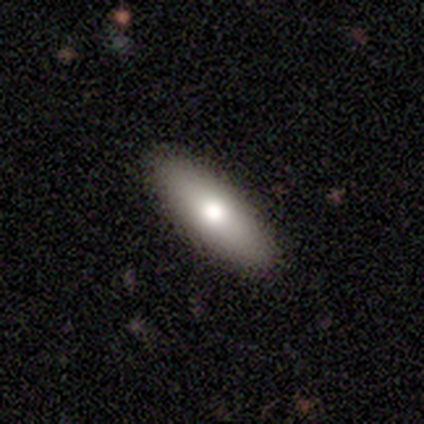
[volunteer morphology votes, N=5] smooth 100%, featured or disk 0%, star or artifact 0%. Down the decision tree: how rounded — in between (60%); merging — none (100%).